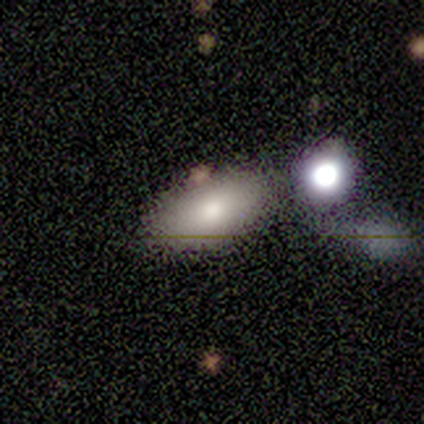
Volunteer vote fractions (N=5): smooth 80%, featured or disk 20%, star or artifact 0%. Down the decision tree: how rounded — in between (100%); merging — none (80%).